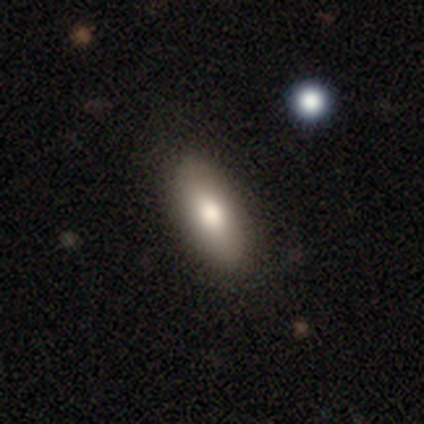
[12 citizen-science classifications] A smooth galaxy with no disk features (92%) that is in between round and cigar-shaped (100%). Merging: none (83%).